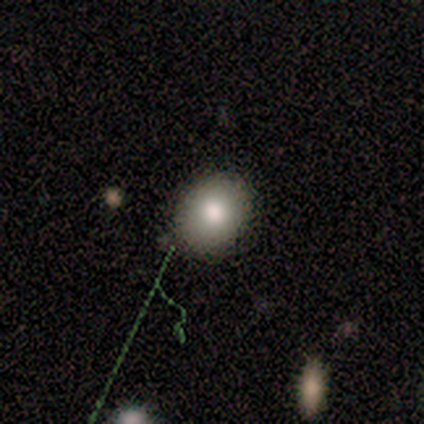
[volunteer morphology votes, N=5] type=smooth (40%, tied with star or artifact); roundness=in between (100%); merging=none (100%).